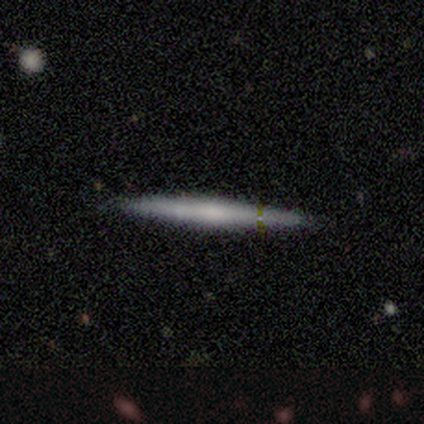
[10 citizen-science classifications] This is possibly a smooth galaxy (50%, tied with featured or disk). How rounded: clearly cigar-shaped (100%). Merging: clearly none (80%).